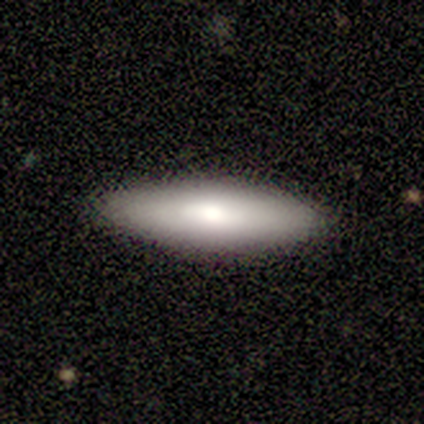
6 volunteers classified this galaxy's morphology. Overall: smooth (83%). How rounded: in between (60%; cigar-shaped 40%). Merging: none (83%).